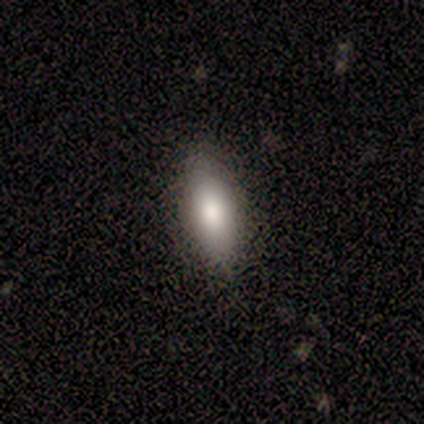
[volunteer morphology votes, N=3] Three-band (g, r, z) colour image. It shows a smooth galaxy with no disk features (100%) that is in between round and cigar-shaped (100%). Merging: none (100%).